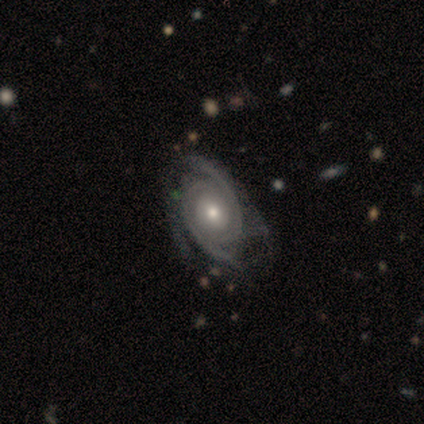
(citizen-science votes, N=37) Overall: featured or disk (100%). Edge-on disk: no (100%). Bar: no (81%). Spiral arms: yes (100%). Spiral arm count: 2 (65%). Spiral winding: tight (57%; medium 41%). Bulge size: moderate (68%). Merging: none (32%; minor disturbance 30%).